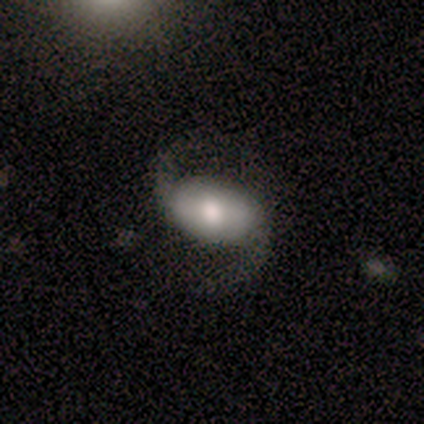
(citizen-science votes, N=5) Smooth or featured?
  - featured or disk: 60% *
  - smooth: 40%
  - star or artifact: 0%
Edge-on disk?
  - no: 100% *
  - yes: 0%
Bar?
  - no: 67% *
  - weak: 33%
  - strong: 0%
Spiral arms?
  - yes: 100% *
  - no: 0%
Spiral winding?
  - loose: 100% *
  - tight: 0%
  - medium: 0%
Spiral arm count?
  - 2: 100% *
  - 1: 0%
  - 3: 0%
  - 4: 0%
  - more than 4: 0%
  - can't tell: 0%
Bulge size?
  - moderate: 67% *
  - small: 33%
  - dominant: 0%
  - large: 0%
  - none: 0%
Merging?
  - none: 40% * (tied)
  - minor disturbance: 40% * (tied)
  - major disturbance: 20%
  - merger: 0%